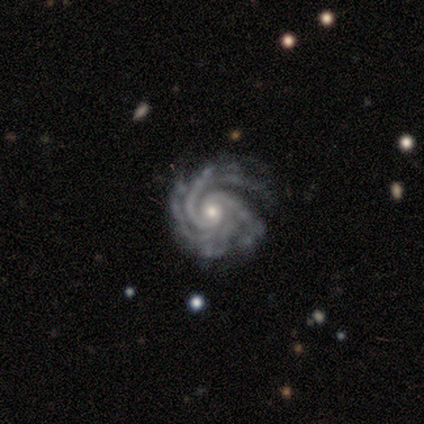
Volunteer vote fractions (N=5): A featured or disk galaxy (100%) with no bar (80%), 3 (40%, tied with 4) tight (100%) spiral arms (100%) and a moderate central bulge (60%).

Vote fractions:
- Smooth or featured? featured or disk: 100% / smooth: 0% / star or artifact: 0%
- Edge-on disk? no: 100% / yes: 0%
- Bar? no: 80% / strong: 20% / weak: 0%
- Spiral arms? yes: 100% / no: 0%
- Spiral winding? tight: 100% / medium: 0% / loose: 0%
- Spiral arm count? 3: 40% (tied) / 4: 40% (tied) / more than 4: 20% / 1: 0% / 2: 0% / can't tell: 0%
- Bulge size? moderate: 60% / small: 40% / dominant: 0% / large: 0% / none: 0%
- Merging? none: 80% / major disturbance: 20% / minor disturbance: 0% / merger: 0%